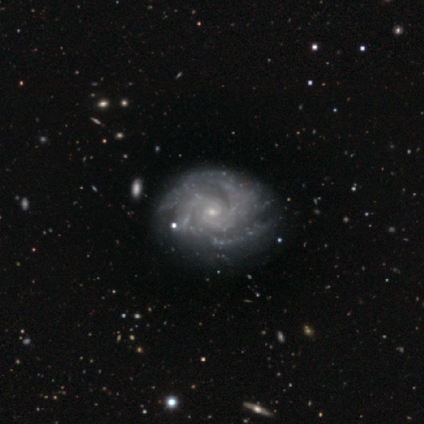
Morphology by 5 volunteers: featured or disk 80%, star or artifact 20%, smooth 0%. Down the decision tree: edge-on disk — no (100%); bar — no (75%); spiral arms — yes (100%); spiral arm count — 2 (50%); spiral winding — tight (100%); bulge size — moderate (75%); merging — minor disturbance (75%).